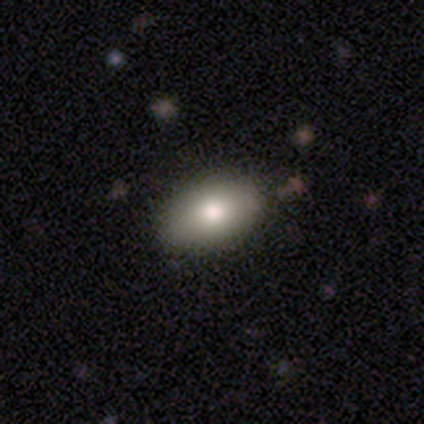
Overall: smooth (78%). How rounded: in between (84%). Merging: none (89%).